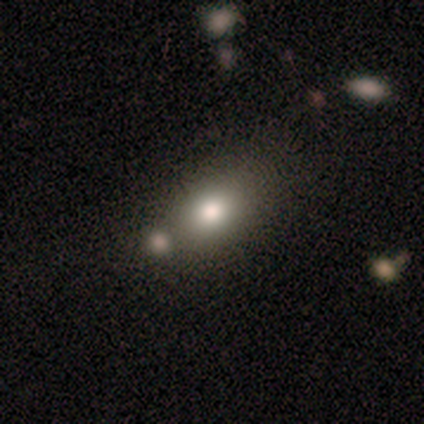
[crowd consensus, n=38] A smooth galaxy with no disk features (63%) that is in between round and cigar-shaped (88%). Merging: none (50%).